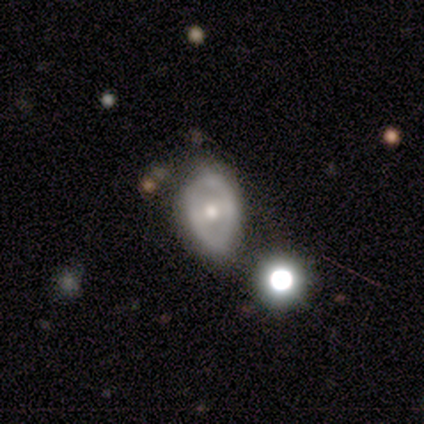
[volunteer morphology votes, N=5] Smooth or featured: smooth — 80% (featured or disk — 20%)
How rounded: in between — 100%
Merging: minor disturbance — 60% (none — 40%)